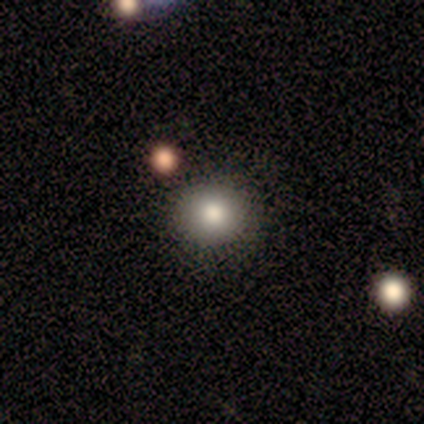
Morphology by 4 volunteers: Smooth or featured? smooth (75%)
How rounded? round (67%)
Merging? none (67%)